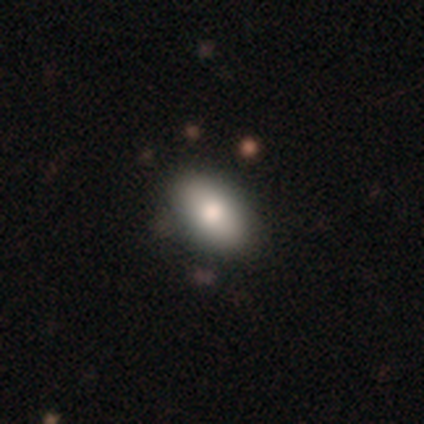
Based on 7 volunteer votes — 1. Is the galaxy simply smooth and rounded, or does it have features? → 86% smooth, 14% star or artifact, 0% featured or disk.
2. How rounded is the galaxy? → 83% in between, 17% round, 0% cigar-shaped.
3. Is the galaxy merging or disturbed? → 100% none, 0% minor disturbance, 0% major disturbance, 0% merger.